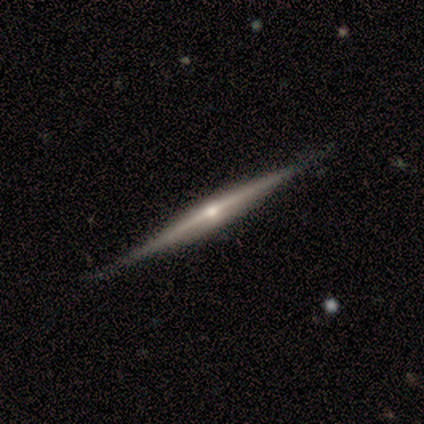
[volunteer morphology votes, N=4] Smooth or featured? 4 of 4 (100%) said featured or disk. Edge-on disk? 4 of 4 (100%) said yes. Edge-on bulge? 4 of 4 (100%) said rounded. Merging? 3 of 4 (75%) said none.